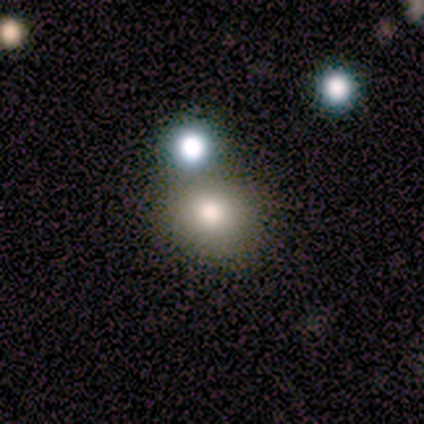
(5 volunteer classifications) smooth 60%, featured or disk 40%, star or artifact 0%. Down the decision tree: how rounded — round (67%); merging — none (40%, tied with merger).